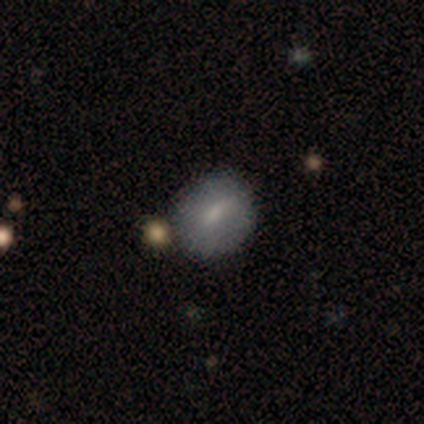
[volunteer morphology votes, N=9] Smooth or featured: smooth — 78% (featured or disk — 22%)
How rounded: round — 57% (in between — 43%)
Merging: none — 100%